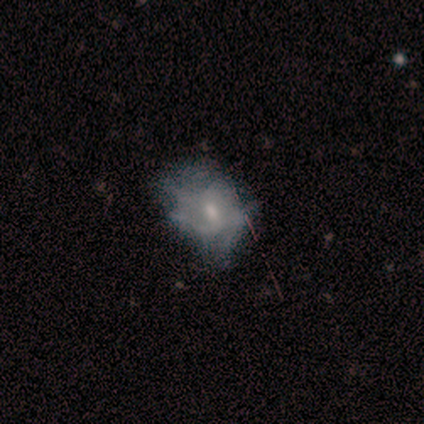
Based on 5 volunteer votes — Overall: smooth (60%; featured or disk 40%). How rounded: round (67%; in between 33%). Merging: none (80%).